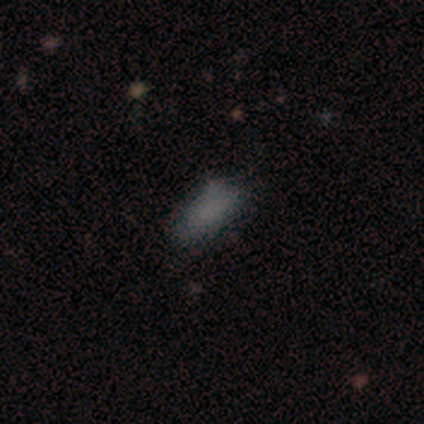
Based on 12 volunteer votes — smooth 92%, featured or disk 8%, star or artifact 0%. Down the decision tree: how rounded — in between (100%); merging — none (42%, tied with minor disturbance).